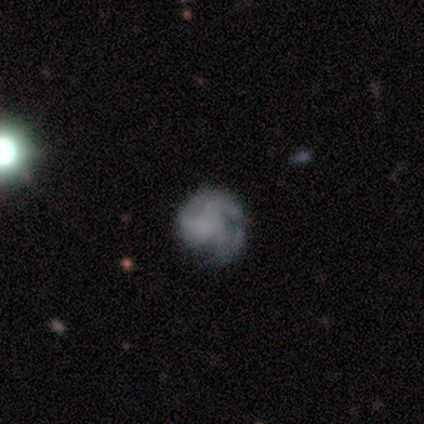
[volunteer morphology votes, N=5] Smooth or featured: smooth — 40% (tied with featured or disk — 40%)
How rounded: round — 100%
Merging: minor disturbance — 50% (none — 25%)